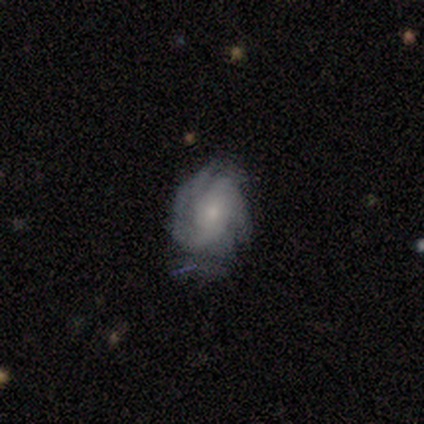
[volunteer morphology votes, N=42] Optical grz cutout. It shows a featured or disk galaxy (83%) with no bar (52%), 2 (52%) tight (45%) spiral arms (88%) and a moderate central bulge (42%). Merging: none (46%).